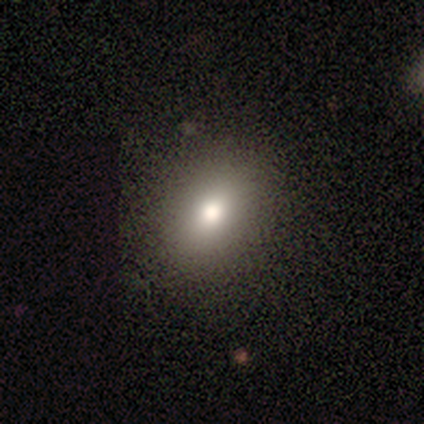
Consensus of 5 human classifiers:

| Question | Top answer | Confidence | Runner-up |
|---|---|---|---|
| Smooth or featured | smooth | 80% | featured or disk (20%) |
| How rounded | in between | 75% | round (25%) |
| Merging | none | 100% | — |